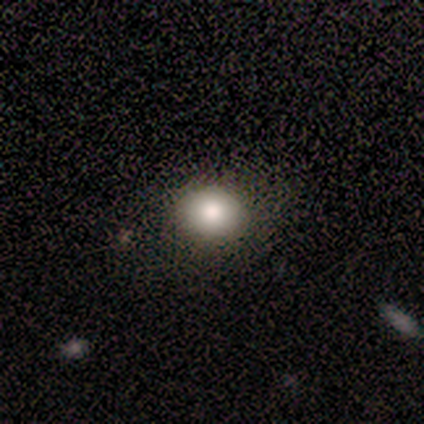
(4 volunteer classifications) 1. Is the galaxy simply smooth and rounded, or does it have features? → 100% smooth, 0% featured or disk, 0% star or artifact.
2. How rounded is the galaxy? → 50% round (tied), 50% in between (tied), 0% cigar-shaped.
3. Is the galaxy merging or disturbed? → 75% none, 25% major disturbance, 0% minor disturbance, 0% merger.